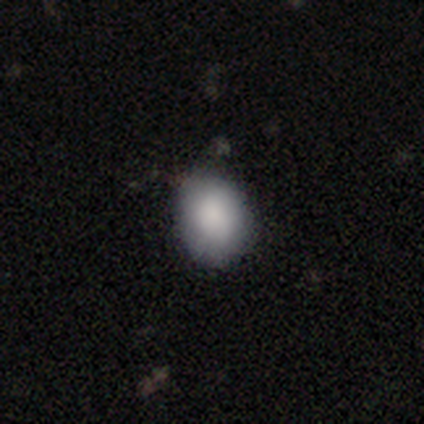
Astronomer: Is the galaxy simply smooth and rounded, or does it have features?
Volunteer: smooth — 80%.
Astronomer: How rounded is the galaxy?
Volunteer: in between — 69%.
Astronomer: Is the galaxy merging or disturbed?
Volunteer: none — 68%.